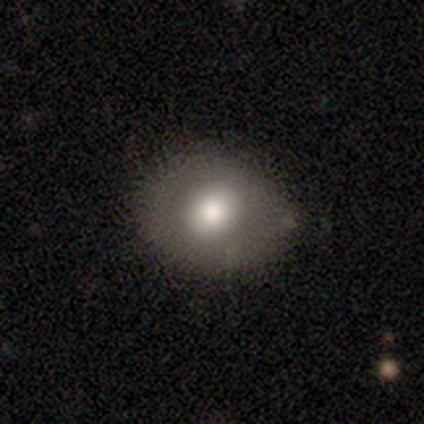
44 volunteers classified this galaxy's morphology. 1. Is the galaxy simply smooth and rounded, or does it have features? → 84% smooth, 9% featured or disk, 7% star or artifact.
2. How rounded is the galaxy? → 65% round, 35% in between, 0% cigar-shaped.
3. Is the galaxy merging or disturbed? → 83% none, 15% minor disturbance, 2% major disturbance, 0% merger.